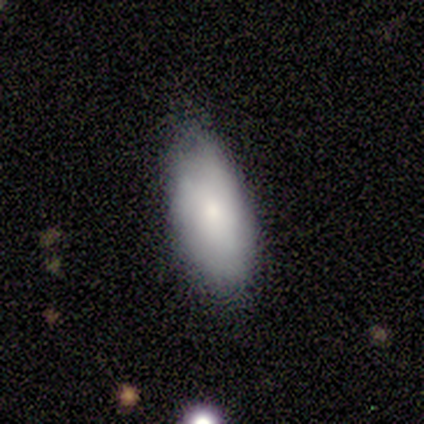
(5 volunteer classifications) Smooth or featured: smooth — 80% (featured or disk — 20%)
How rounded: in between — 100%
Merging: none — 100%